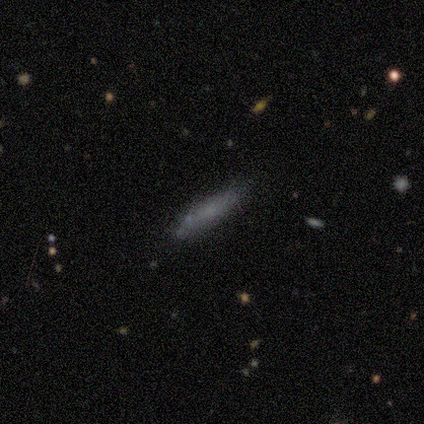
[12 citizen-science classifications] smooth-or-featured: smooth: 83% | featured or disk: 17% | star or artifact: 0%
  how-rounded: cigar-shaped: 90% | in between: 10% | round: 0%
  merging: none: 67% | minor disturbance: 17% | major disturbance: 8% | merger: 8%